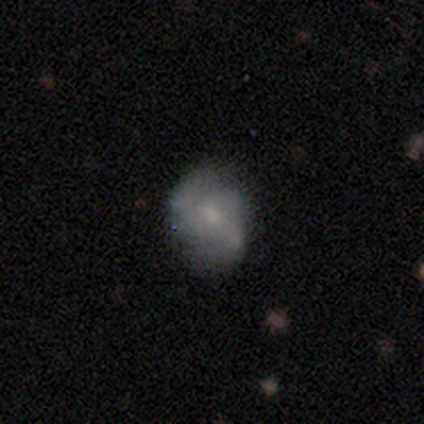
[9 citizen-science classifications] This appears to be a smooth galaxy with no disk features (56%) that is in between round and cigar-shaped (60%). Merging: none (67%).